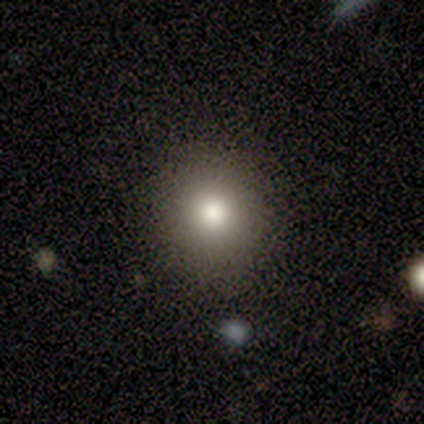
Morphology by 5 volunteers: Smooth or featured?
  - smooth: 100% *
  - featured or disk: 0%
  - star or artifact: 0%
How rounded?
  - round: 100% *
  - in between: 0%
  - cigar-shaped: 0%
Merging?
  - none: 100% *
  - minor disturbance: 0%
  - major disturbance: 0%
  - merger: 0%